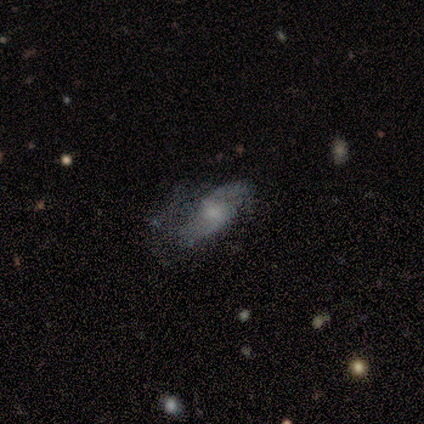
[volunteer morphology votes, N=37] smooth-or-featured: featured or disk: 62% | smooth: 27% | star or artifact: 11%
  disk-edge-on: no: 96% | yes: 4%
    bar: no: 64% | weak: 36% | strong: 0%
    has-spiral-arms: yes: 86% | no: 14%
      spiral-winding: loose: 53% | medium: 32% | tight: 16%
      spiral-arm-count: 2: 84% | 1: 11% | can't tell: 5% | 3: 0% | 4: 0% | more than 4: 0%
    bulge-size: small: 55% | moderate: 27% | none: 18% | dominant: 0% | large: 0%
  merging: none: 39% | minor disturbance: 36% | major disturbance: 21% | merger: 3%